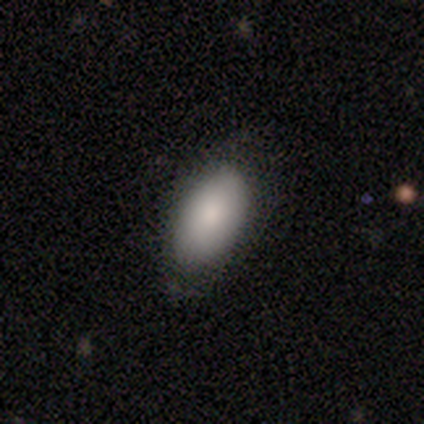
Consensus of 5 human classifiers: Smooth or featured? smooth (80%)
How rounded? in between (100%)
Merging? none (100%)